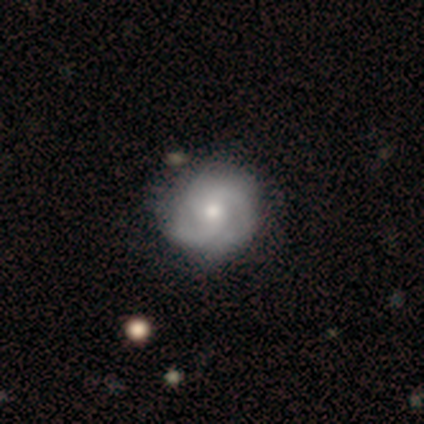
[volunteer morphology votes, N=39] This appears to be a featured or disk galaxy (74%) with no bar (76%), 2 (46%) medium (54%) spiral arms (97%) and a moderate central bulge (48%). Merging: none (36%).